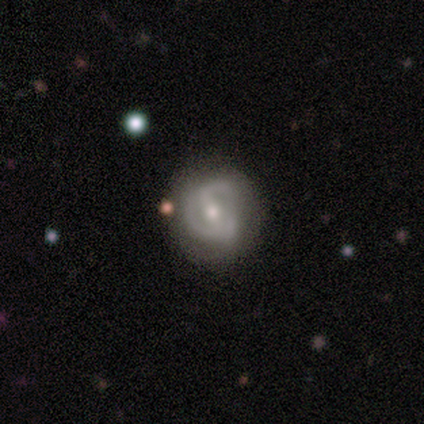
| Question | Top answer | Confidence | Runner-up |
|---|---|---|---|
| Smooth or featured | featured or disk | 80% | smooth (20%) |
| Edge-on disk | no | 100% | — |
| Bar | strong | 50% | weak (25%) |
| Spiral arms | yes | 100% | — |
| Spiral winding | tight | 75% | medium (25%) |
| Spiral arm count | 2 | 100% | — |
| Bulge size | moderate | 100% | — |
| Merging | none | 60% | minor disturbance (20%) |